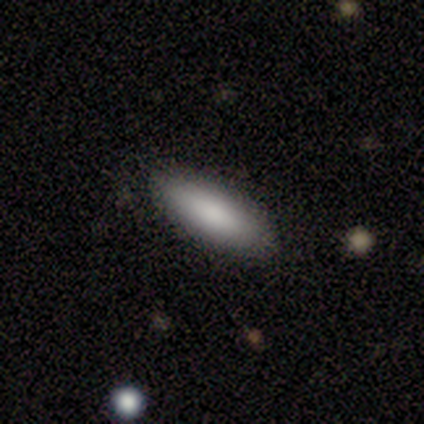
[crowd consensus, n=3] smooth-or-featured: smooth: 67% | star or artifact: 33% | featured or disk: 0%
  how-rounded: in between: 100% | round: 0% | cigar-shaped: 0%
  merging: none: 100% | minor disturbance: 0% | major disturbance: 0% | merger: 0%